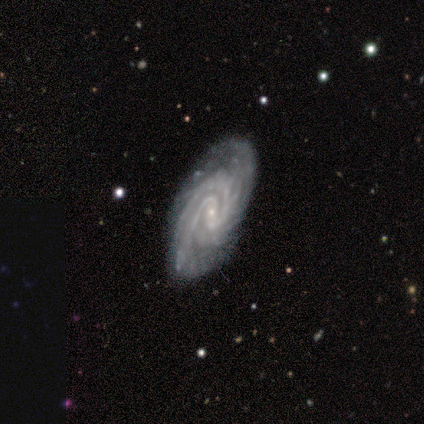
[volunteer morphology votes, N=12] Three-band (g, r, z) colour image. It shows a featured or disk galaxy (92%) with a weak bar (45%), 2 (55%) tight (100%) spiral arms (100%) and a small central bulge (82%). Merging: none (73%).